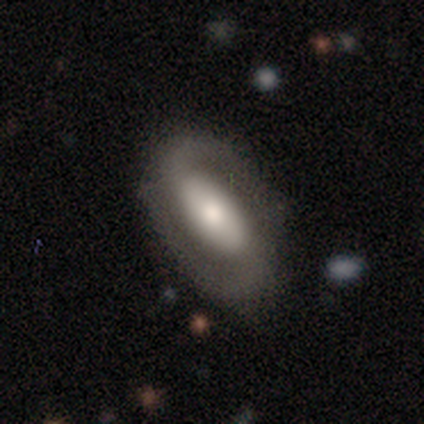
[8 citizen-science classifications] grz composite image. It shows a featured or disk galaxy (75%) with a strong bar (67%), 2 (100%) loose (50%) spiral arms (100%) and a moderate central bulge (50%). Merging: none (71%).